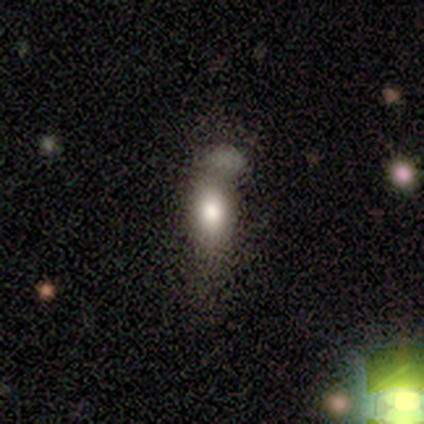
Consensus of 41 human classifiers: This is likely a smooth galaxy (76%). How rounded: clearly in between (81%). Merging: marginally merger (34%).